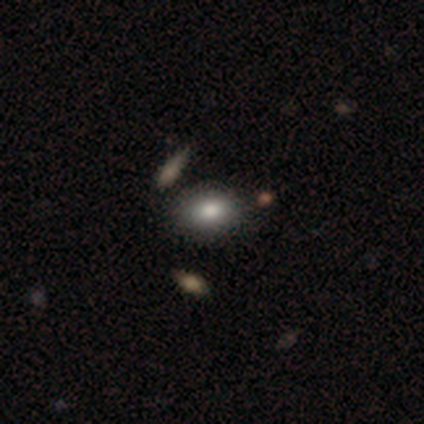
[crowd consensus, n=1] smooth-or-featured: smooth: 100% | featured or disk: 0% | star or artifact: 0%
  how-rounded: round: 100% | in between: 0% | cigar-shaped: 0%
  merging: none: 100% | minor disturbance: 0% | major disturbance: 0% | merger: 0%